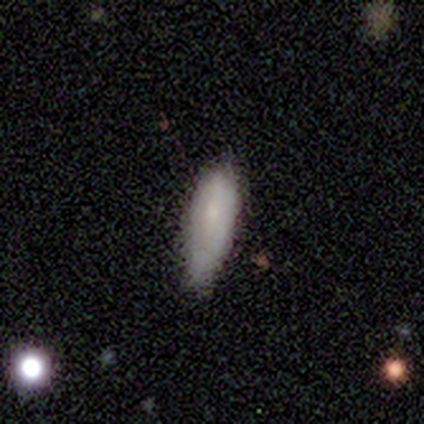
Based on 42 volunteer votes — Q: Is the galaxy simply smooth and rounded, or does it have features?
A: smooth — 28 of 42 (67%).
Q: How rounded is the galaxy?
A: in between — 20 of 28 (71%).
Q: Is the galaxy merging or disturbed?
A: minor disturbance — 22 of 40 (55%).